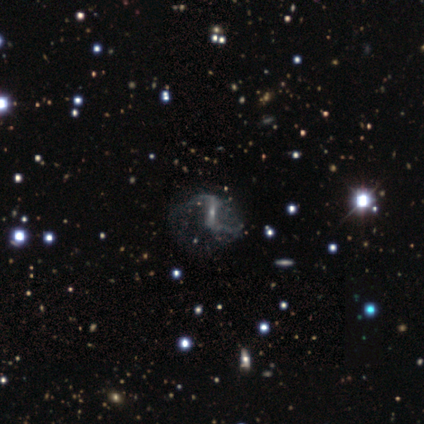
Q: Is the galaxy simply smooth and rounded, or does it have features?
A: featured or disk — 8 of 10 (80%).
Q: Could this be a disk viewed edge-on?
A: no — 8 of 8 (100%).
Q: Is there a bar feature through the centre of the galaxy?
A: weak — 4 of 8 (50%).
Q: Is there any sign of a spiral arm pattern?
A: yes — 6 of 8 (75%).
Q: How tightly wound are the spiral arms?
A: loose — 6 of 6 (100%).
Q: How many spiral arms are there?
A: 2 — 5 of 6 (83%).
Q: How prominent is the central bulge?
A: small — 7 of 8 (88%).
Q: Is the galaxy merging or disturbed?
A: none — 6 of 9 (67%).